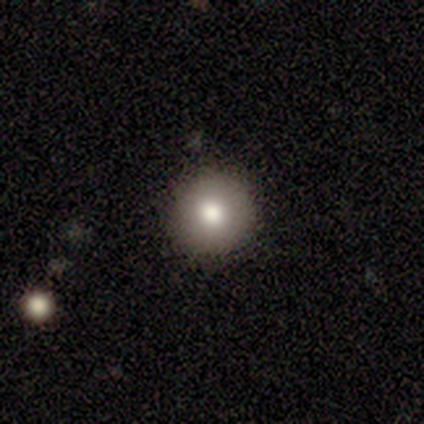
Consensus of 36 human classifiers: Q: Smooth or featured?
A: smooth (81%); runner-up: star or artifact (11%)
Q: How rounded?
A: round (97%); runner-up: in between (3%)
Q: Merging?
A: none (62%); runner-up: minor disturbance (6%)